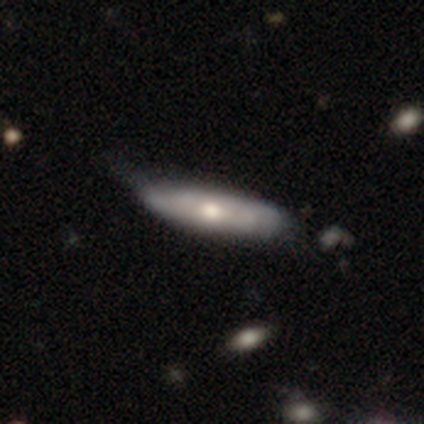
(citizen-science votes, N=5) Q: Smooth or featured?
A: featured or disk (60%); runner-up: smooth (40%)
Q: Edge-on disk?
A: no (67%); runner-up: yes (33%)
Q: Bar?
A: no (100%)
Q: Spiral arms?
A: yes (50%); tied with: no (50%)
Q: Spiral winding?
A: tight (100%)
Q: Spiral arm count?
A: can't tell (100%)
Q: Bulge size?
A: moderate (100%)
Q: Merging?
A: minor disturbance (60%); runner-up: none (40%)